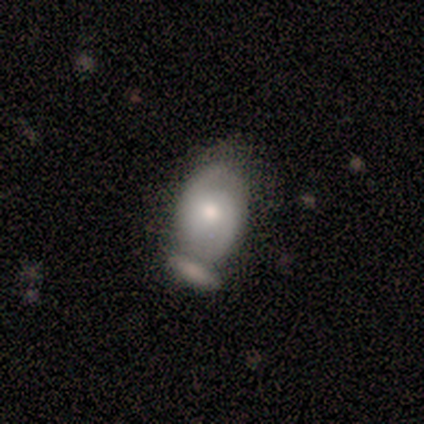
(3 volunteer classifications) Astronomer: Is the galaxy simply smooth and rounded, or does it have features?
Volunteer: featured or disk — 100%.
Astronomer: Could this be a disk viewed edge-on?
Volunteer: no — 100%.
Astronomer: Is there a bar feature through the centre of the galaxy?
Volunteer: no — 100%.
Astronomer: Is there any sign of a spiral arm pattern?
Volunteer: yes — 100%.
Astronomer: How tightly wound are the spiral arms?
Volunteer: tight — 67%.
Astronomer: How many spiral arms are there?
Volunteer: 2 — 100%.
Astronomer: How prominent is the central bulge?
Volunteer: moderate — 67%.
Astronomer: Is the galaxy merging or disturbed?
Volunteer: none — 33%, tied with minor disturbance and merger at 33%.